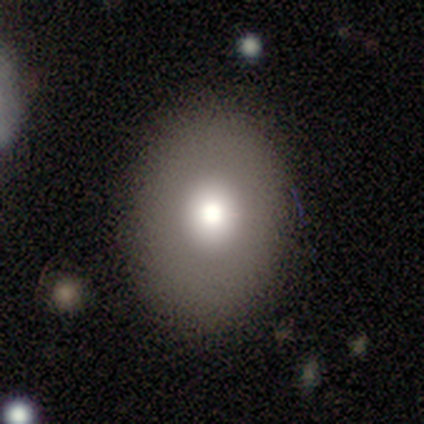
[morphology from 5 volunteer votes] A smooth galaxy with no disk features (80%) that is round (50%, tied with in between). Merging: none (60%).